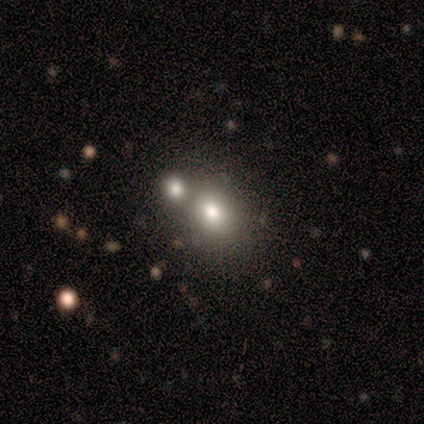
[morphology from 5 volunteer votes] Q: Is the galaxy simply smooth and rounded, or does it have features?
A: smooth — 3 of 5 (60%).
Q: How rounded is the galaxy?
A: round — 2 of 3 (67%).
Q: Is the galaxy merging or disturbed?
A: none — 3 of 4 (75%).